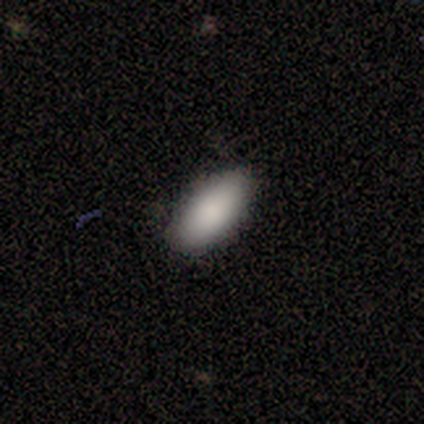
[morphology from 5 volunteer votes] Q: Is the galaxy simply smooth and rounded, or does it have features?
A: smooth — 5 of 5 (100%).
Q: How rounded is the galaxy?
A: in between — 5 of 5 (100%).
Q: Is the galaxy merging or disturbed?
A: none — 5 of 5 (100%).